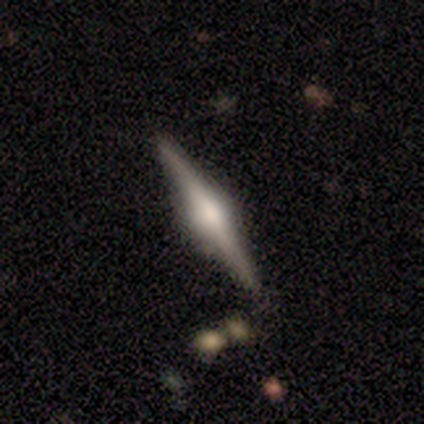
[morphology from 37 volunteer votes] Volunteers were most divided on "smooth or featured": featured or disk: 84%, smooth: 14%, star or artifact: 3%. More confident: edge-on disk — yes (94%); edge-on bulge — rounded (90%); merging — none (86%).